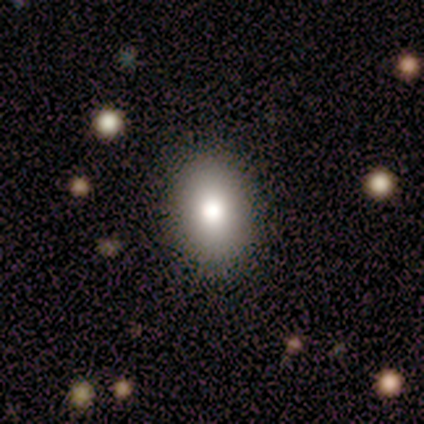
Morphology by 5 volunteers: Smooth or featured? 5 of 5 (100%) said smooth. How rounded? 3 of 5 (60%) said in between. Merging? 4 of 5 (80%) said none.